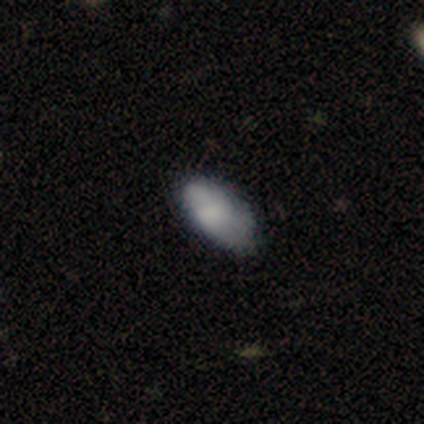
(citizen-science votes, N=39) A smooth galaxy with no disk features (77%) that is in between round and cigar-shaped (83%). Merging: none (54%).